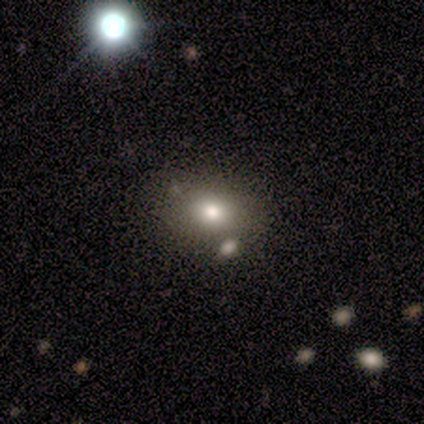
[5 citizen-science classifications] smooth-or-featured: smooth: 100% | featured or disk: 0% | star or artifact: 0%
  how-rounded: in between: 80% | round: 20% | cigar-shaped: 0%
  merging: none: 80% | merger: 20% | minor disturbance: 0% | major disturbance: 0%